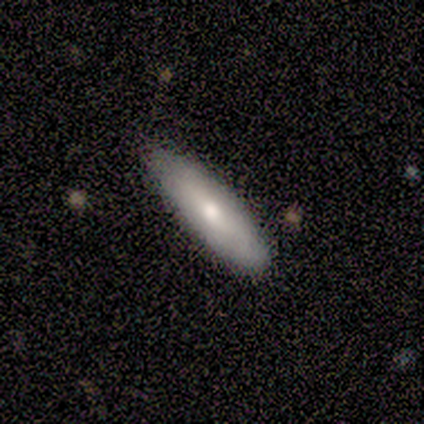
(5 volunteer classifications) smooth_or_featured: smooth (p=0.60) [alt: featured or disk p=0.40]
how_rounded: cigar-shaped (p=0.67) [alt: in between p=0.33]
merging: none (p=0.80) [alt: merger p=0.20]